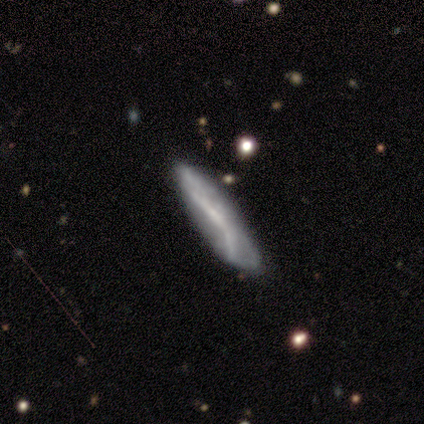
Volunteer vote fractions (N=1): Overall: featured or disk (100%). Edge-on disk: no (100%). Bar: no (100%). Spiral arms: no (100%). Bulge size: small (100%). Merging: none (100%).